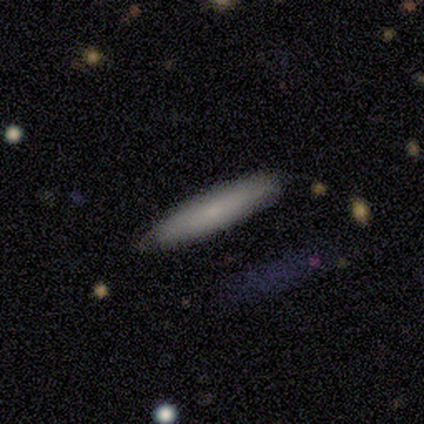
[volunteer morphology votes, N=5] Smooth or featured? smooth (80%)
How rounded? cigar-shaped (100%)
Merging? none (100%)